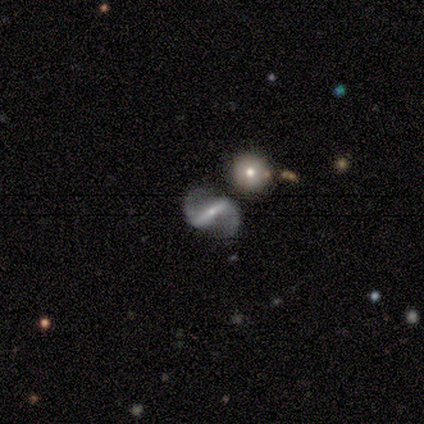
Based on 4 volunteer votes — featured or disk 100%, smooth 0%, star or artifact 0%. Down the decision tree: edge-on disk — no (100%); bar — strong (75%); spiral arms — yes (100%); spiral arm count — 2 (100%); spiral winding — medium (50%, tied with loose); bulge size — small (75%); merging — none (100%).